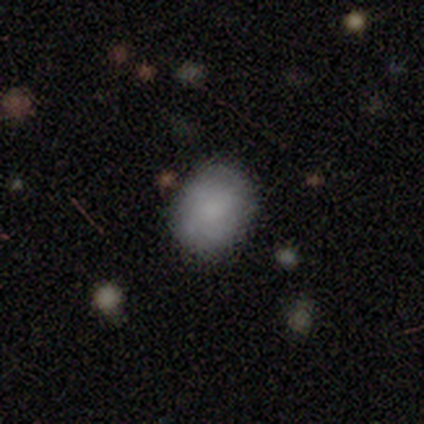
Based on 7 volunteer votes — A smooth galaxy with no disk features (86%) that is in between round and cigar-shaped (67%).

Vote fractions:
- Smooth or featured? smooth: 86% / featured or disk: 14% / star or artifact: 0%
- How rounded? in between: 67% / round: 33% / cigar-shaped: 0%
- Merging? none: 57% / major disturbance: 29% / minor disturbance: 14% / merger: 0%